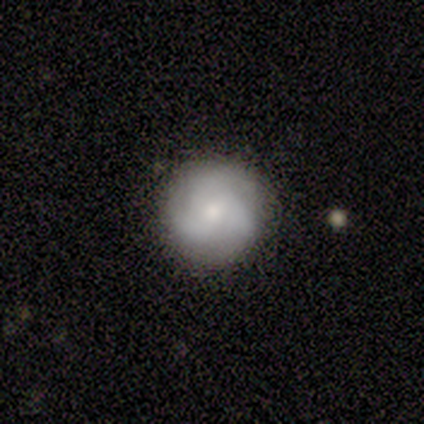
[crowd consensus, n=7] This is clearly a featured or disk galaxy (86%). It is clearly not viewed edge-on (100%). Bar: clearly no (100%). Spiral arm pattern: clearly yes (83%). Spiral arm count: clearly 3 (80%). Spiral winding: clearly medium (80%). Central bulge: likely moderate (67%). Merging: clearly none (86%).